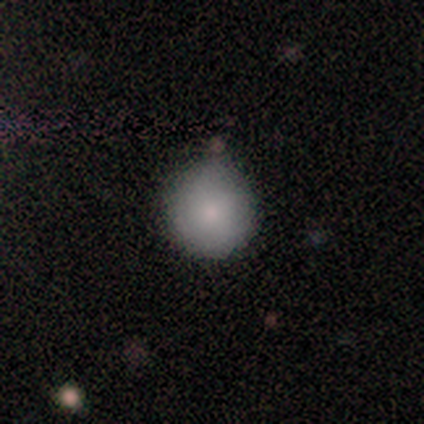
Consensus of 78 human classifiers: Q: Smooth or featured?
A: smooth (91%); runner-up: featured or disk (5%)
Q: How rounded?
A: round (96%); runner-up: in between (4%)
Q: Merging?
A: none (41%); runner-up: minor disturbance (17%)